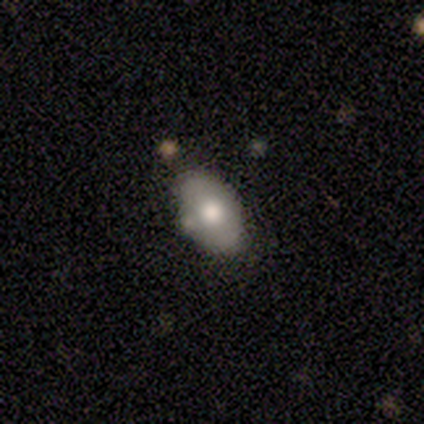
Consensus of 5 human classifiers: This is likely a smooth galaxy (60%). How rounded: clearly in between (100%). Merging: marginally none (40%, tied with minor disturbance).